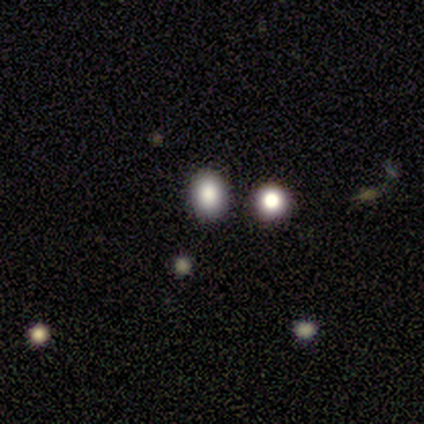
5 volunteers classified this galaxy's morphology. type=smooth (60%); roundness=in between (67%); merging=none (60%).